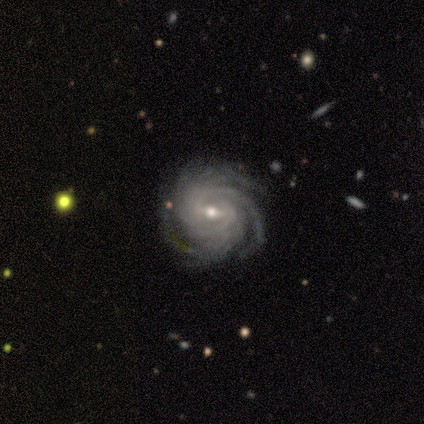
Smooth or featured? featured or disk (100%)
Edge-on disk? no (100%)
Bar? weak (80%)
Spiral arms? yes (100%)
Spiral winding? medium (60%)
Spiral arm count? more than 4 (60%)
Bulge size? moderate (80%)
Merging? none (80%)